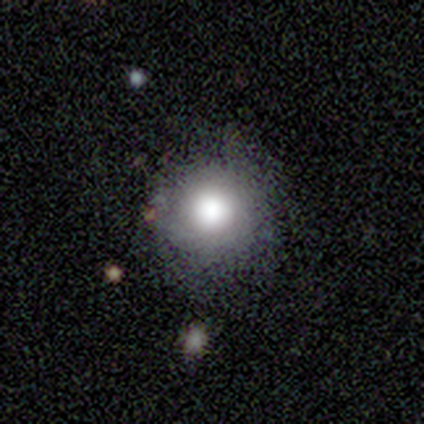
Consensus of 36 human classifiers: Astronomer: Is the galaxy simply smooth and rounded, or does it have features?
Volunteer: smooth — 78%.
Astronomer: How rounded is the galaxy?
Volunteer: round — 96%.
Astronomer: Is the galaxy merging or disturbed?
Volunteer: none — 64%.